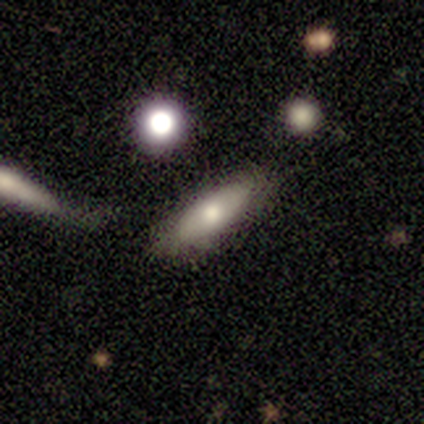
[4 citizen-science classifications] Q: Smooth or featured?
A: smooth (75%); runner-up: featured or disk (25%)
Q: How rounded?
A: cigar-shaped (67%); runner-up: in between (33%)
Q: Merging?
A: none (100%)